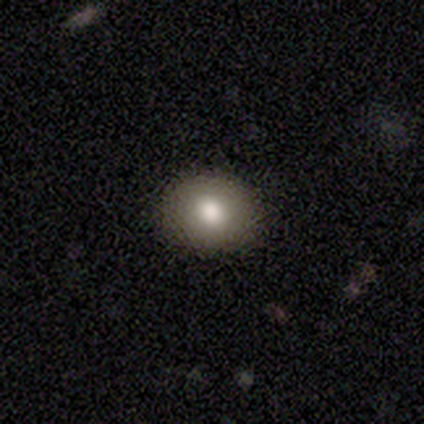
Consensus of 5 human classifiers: Overall: smooth (80%). How rounded: round (75%). Merging: none (100%).